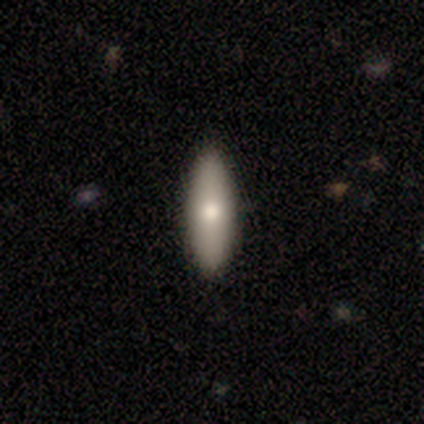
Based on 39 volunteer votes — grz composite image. It shows a smooth galaxy with no disk features (85%) that is in between round and cigar-shaped (70%). Merging: none (62%).